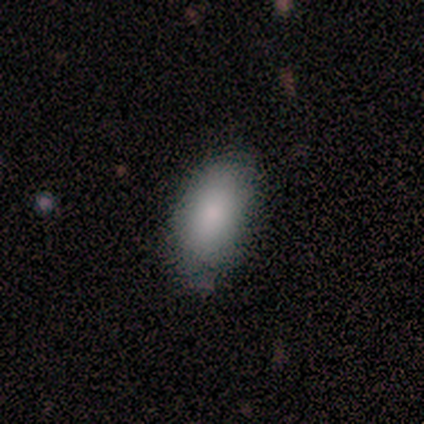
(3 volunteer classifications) smooth_or_featured: smooth (p=0.67) [alt: star or artifact p=0.33]
how_rounded: in between (p=1.00)
merging: none (p=1.00)